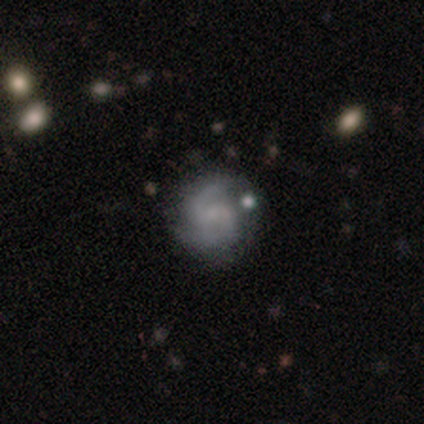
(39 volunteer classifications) Smooth or featured?
  - featured or disk: 79% *
  - smooth: 13%
  - star or artifact: 8%
Edge-on disk?
  - no: 87% *
  - yes: 13%
Bar?
  - no: 52% *
  - weak: 41%
  - strong: 7%
Spiral arms?
  - yes: 96% *
  - no: 4%
Spiral winding?
  - medium: 46% *
  - tight: 35%
  - loose: 19%
Spiral arm count?
  - 2: 77% *
  - 3: 19%
  - can't tell: 4%
  - 1: 0%
  - 4: 0%
  - more than 4: 0%
Bulge size?
  - none: 52% *
  - small: 44%
  - moderate: 4%
  - dominant: 0%
  - large: 0%
Merging?
  - none: 69% *
  - minor disturbance: 25%
  - major disturbance: 3%
  - merger: 3%